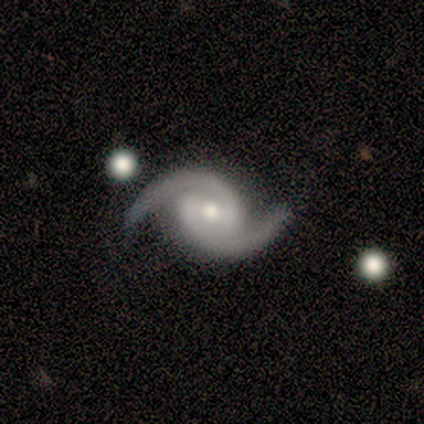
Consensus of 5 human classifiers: A featured or disk galaxy (100%) with no bar (60%), 2 (100%) medium (80%) spiral arms (100%) and a moderate central bulge (40%, tied with small). Merging: none (100%).